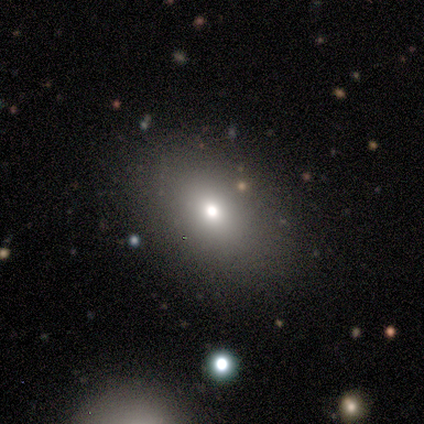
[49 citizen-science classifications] smooth_or_featured: smooth (p=0.80) [alt: star or artifact p=0.14]
how_rounded: in between (p=0.82) [alt: round p=0.13]
merging: none (p=0.81) [alt: minor disturbance p=0.17]